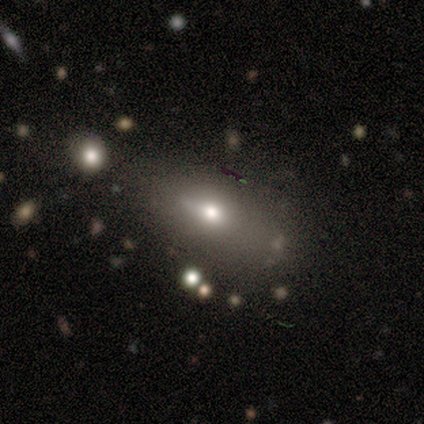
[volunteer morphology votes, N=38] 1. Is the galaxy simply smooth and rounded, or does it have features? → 58% smooth, 24% featured or disk, 18% star or artifact.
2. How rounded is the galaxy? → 77% in between, 18% cigar-shaped, 5% round.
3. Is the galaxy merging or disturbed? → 68% none, 16% minor disturbance, 10% merger, 6% major disturbance.